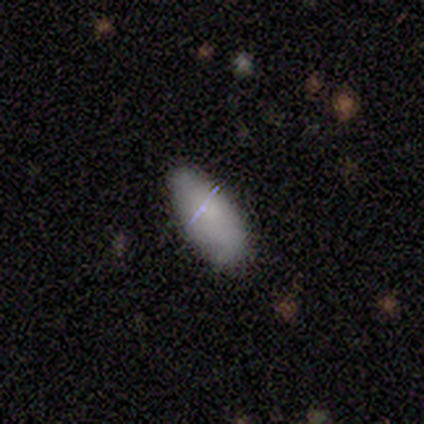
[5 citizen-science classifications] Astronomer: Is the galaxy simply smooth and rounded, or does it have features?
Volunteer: smooth — 80%.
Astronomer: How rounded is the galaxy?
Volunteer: in between — 100%.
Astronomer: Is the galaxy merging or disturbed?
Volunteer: none — 80%.